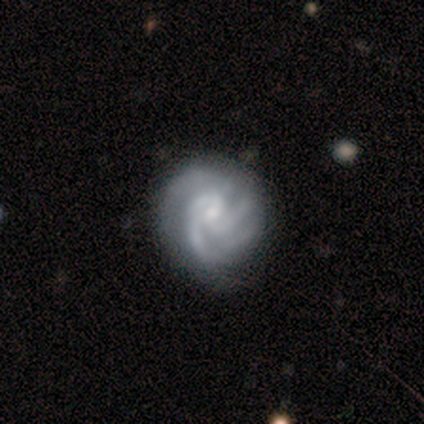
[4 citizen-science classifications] Q: Smooth or featured?
A: featured or disk (100%)
Q: Edge-on disk?
A: no (75%); runner-up: yes (25%)
Q: Bar?
A: no (100%)
Q: Spiral arms?
A: yes (100%)
Q: Spiral winding?
A: tight (100%)
Q: Spiral arm count?
A: 2 (33%); tied with: 3 (33%); 4 (33%)
Q: Bulge size?
A: moderate (67%); runner-up: small (33%)
Q: Merging?
A: none (50%); runner-up: minor disturbance (25%)